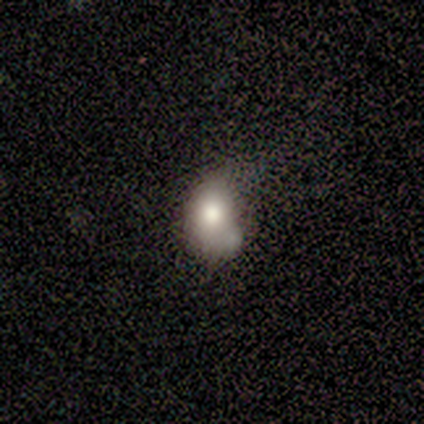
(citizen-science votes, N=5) This is clearly a smooth galaxy (80%). How rounded: clearly in between (100%). Merging: likely none (60%).